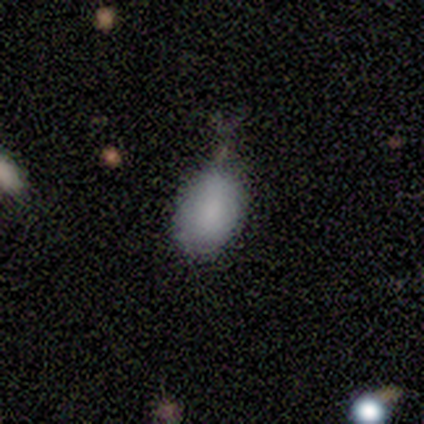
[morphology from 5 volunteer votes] Smooth or featured?
  - smooth: 80% *
  - star or artifact: 20%
  - featured or disk: 0%
How rounded?
  - in between: 100% *
  - round: 0%
  - cigar-shaped: 0%
Merging?
  - minor disturbance: 100% *
  - none: 0%
  - major disturbance: 0%
  - merger: 0%